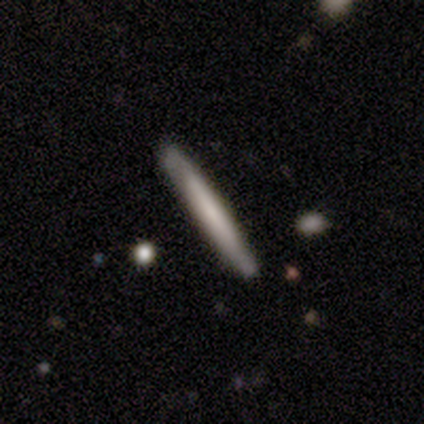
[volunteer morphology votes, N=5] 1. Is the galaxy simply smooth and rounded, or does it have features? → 80% smooth, 20% featured or disk, 0% star or artifact.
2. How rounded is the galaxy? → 100% cigar-shaped, 0% round, 0% in between.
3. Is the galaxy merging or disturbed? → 100% none, 0% minor disturbance, 0% major disturbance, 0% merger.